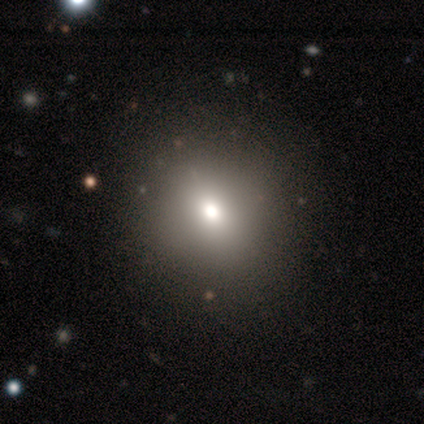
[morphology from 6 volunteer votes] This appears to be a smooth galaxy with no disk features (67%) that is round (75%). Merging: none (67%).